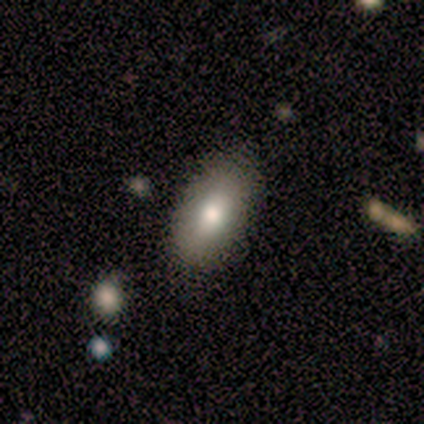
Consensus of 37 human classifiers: Smooth or featured? smooth (76%)
How rounded? in between (82%)
Merging? none (76%)